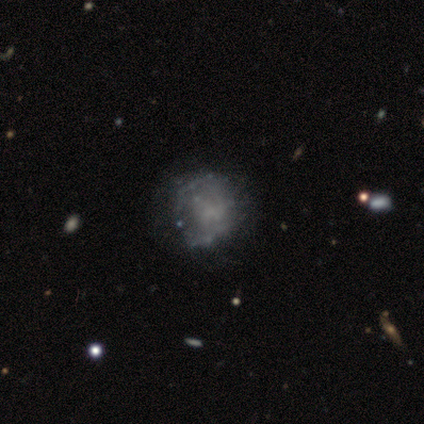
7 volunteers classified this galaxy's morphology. Smooth or featured? 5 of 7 (71%) said featured or disk. Edge-on disk? 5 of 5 (100%) said no. Bar? 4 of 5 (80%) said no. Spiral arms? 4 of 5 (80%) said no. Bulge size? 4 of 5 (80%) said none. Merging? 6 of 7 (86%) said none.